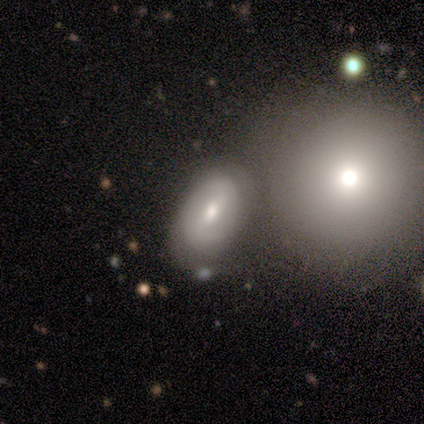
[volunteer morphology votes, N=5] Smooth or featured: smooth — 80% (featured or disk — 20%)
How rounded: in between — 100%
Merging: none — 60% (merger — 40%)